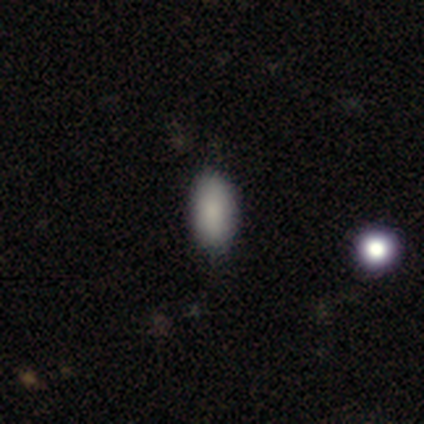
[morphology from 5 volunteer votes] smooth 60%, star or artifact 40%, featured or disk 0%. Down the decision tree: how rounded — in between (67%); merging — none (100%).